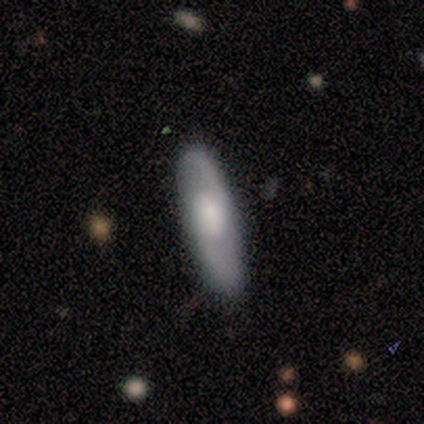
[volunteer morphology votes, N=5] Overall: smooth (60%; featured or disk 40%). How rounded: cigar-shaped (100%). Merging: none (60%; minor disturbance 20%).